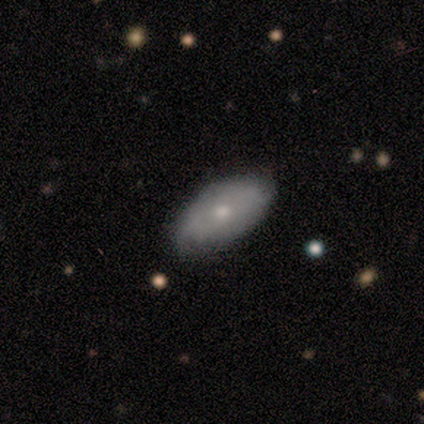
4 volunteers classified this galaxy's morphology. type=smooth (50%, tied with featured or disk); roundness=in between (100%); merging=none (50%, tied with minor disturbance).